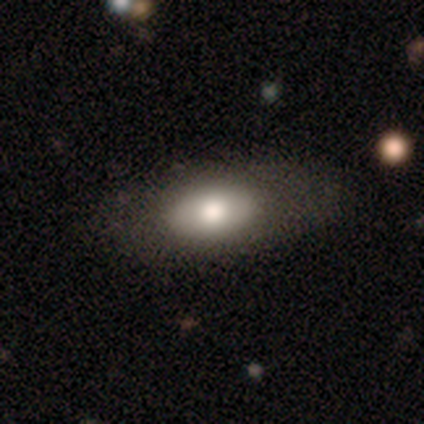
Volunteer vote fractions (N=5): Volunteers were most divided on "smooth or featured": smooth: 60%, featured or disk: 40%, star or artifact: 0%. More confident: merging — none (80%); how rounded — in between (67%).